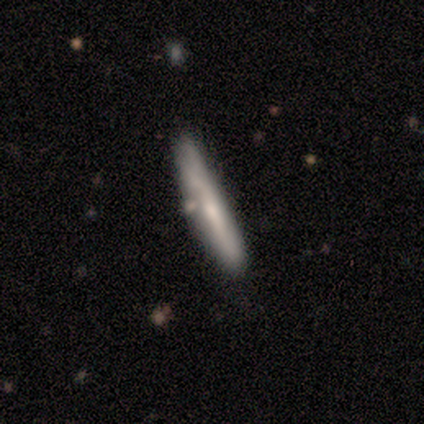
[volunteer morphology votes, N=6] Q: Smooth or featured?
A: smooth (67%); runner-up: featured or disk (33%)
Q: How rounded?
A: cigar-shaped (100%)
Q: Merging?
A: none (67%); runner-up: minor disturbance (17%)